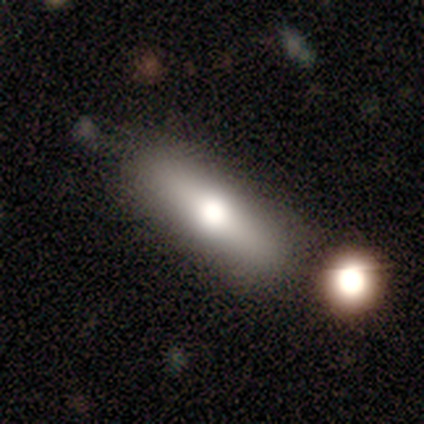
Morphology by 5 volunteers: This appears to be a smooth galaxy with no disk features (60%) that is in between round and cigar-shaped (100%). Merging: none (100%).